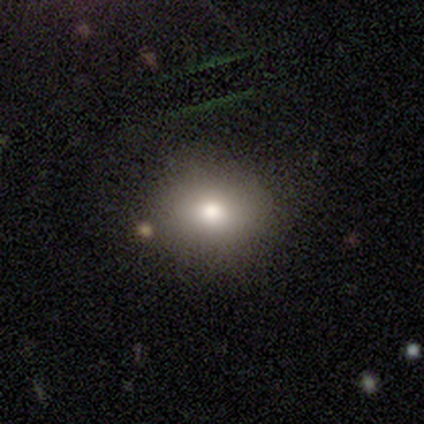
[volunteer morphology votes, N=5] smooth-or-featured: smooth: 80% | featured or disk: 20% | star or artifact: 0%
  how-rounded: round: 75% | in between: 25% | cigar-shaped: 0%
  merging: none: 80% | minor disturbance: 20% | major disturbance: 0% | merger: 0%